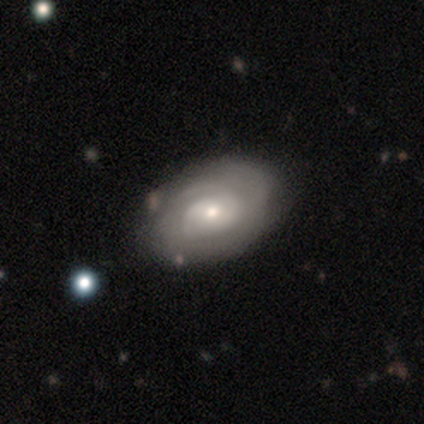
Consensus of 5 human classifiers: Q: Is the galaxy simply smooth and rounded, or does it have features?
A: featured or disk — 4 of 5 (80%).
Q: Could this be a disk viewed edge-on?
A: no — 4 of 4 (100%).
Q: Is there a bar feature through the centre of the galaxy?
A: weak — 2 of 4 (50%, tied with no).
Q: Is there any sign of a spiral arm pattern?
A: yes — 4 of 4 (100%).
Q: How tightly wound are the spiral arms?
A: tight — 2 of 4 (50%, tied with medium).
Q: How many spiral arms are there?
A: can't tell — 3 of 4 (75%).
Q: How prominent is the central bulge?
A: moderate — 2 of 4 (50%).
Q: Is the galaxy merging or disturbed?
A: none — 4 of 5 (80%).